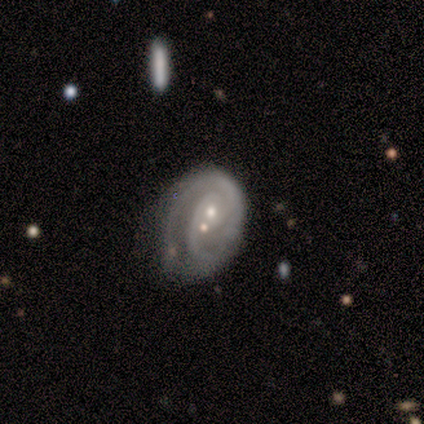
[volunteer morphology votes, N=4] smooth-or-featured: featured or disk: 75% | star or artifact: 25% | smooth: 0%
  disk-edge-on: no: 100% | yes: 0%
    bar: no: 100% | strong: 0% | weak: 0%
    has-spiral-arms: yes: 100% | no: 0%
      spiral-winding: tight: 100% | medium: 0% | loose: 0%
      spiral-arm-count: 2: 100% | 1: 0% | 3: 0% | 4: 0% | more than 4: 0% | can't tell: 0%
    bulge-size: small: 67% | moderate: 33% | dominant: 0% | large: 0% | none: 0%
  merging: minor disturbance: 33% (tied) | major disturbance: 33% (tied) | merger: 33% (tied) | none: 0%